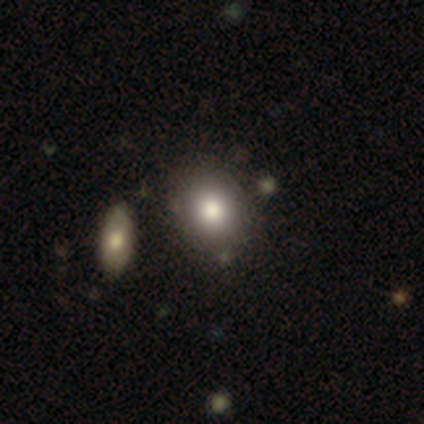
Smooth or featured? 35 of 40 (88%) said smooth. How rounded? 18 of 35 (51%) said in between. Merging? 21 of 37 (57%) said none.